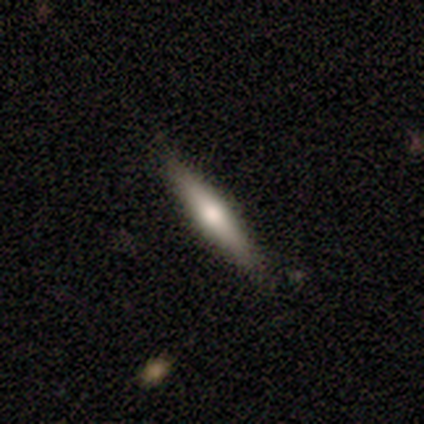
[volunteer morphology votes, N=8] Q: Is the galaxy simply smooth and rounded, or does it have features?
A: smooth — 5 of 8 (62%).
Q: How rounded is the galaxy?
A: cigar-shaped — 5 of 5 (100%).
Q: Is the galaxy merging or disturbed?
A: none — 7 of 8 (88%).